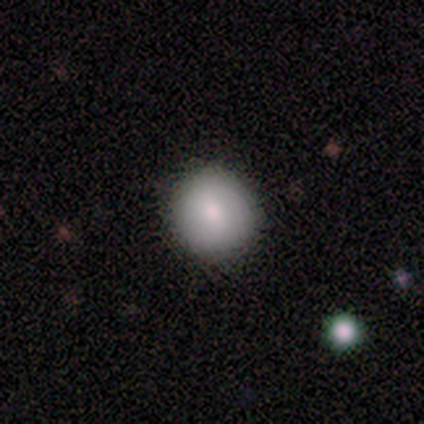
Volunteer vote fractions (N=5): A smooth galaxy with no disk features (100%) that is round (100%). Merging: none (100%).